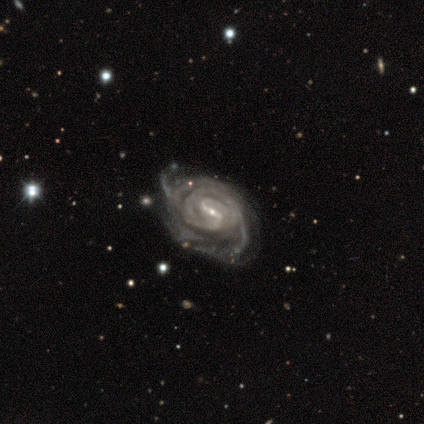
Q: Smooth or featured?
A: featured or disk (100%)
Q: Edge-on disk?
A: no (100%)
Q: Bar?
A: strong (50%); tied with: weak (50%)
Q: Spiral arms?
A: yes (100%)
Q: Spiral winding?
A: tight (83%); runner-up: medium (17%)
Q: Spiral arm count?
A: 2 (33%); tied with: more than 4 (33%); can't tell (33%)
Q: Bulge size?
A: small (83%); runner-up: moderate (17%)
Q: Merging?
A: minor disturbance (50%); runner-up: none (33%)